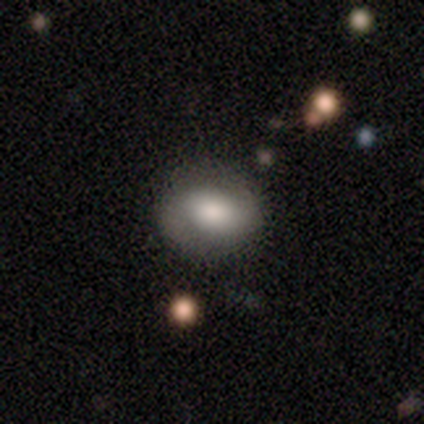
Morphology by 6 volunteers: A smooth galaxy with no disk features (50%) that is round (67%). Merging: none (100%).